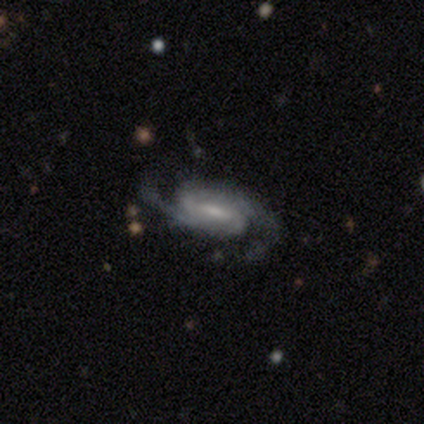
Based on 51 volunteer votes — smooth_or_featured: featured or disk (p=0.96) [alt: smooth p=0.04]
disk_edge_on: no (p=0.96) [alt: yes p=0.04]
bar: weak (p=0.43) [alt: strong p=0.30]
has_spiral_arms: yes (p=0.96) [alt: no p=0.04]
spiral_winding: medium (p=0.67) [alt: tight p=0.22]
spiral_arm_count: 2 (p=0.91) [alt: 3 p=0.04]
bulge_size: small (p=0.43) [alt: moderate p=0.38]
merging: none (p=0.65) [alt: major disturbance p=0.18]